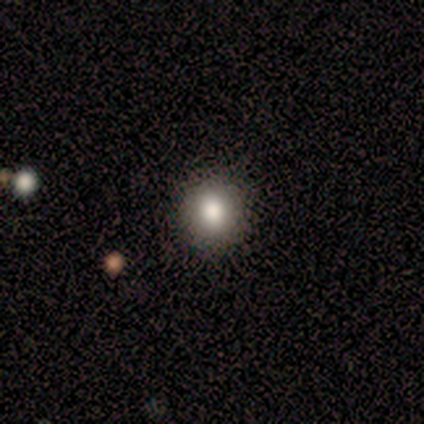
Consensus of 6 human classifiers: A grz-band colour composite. It shows a smooth galaxy with no disk features (83%) that is round (100%). Merging: none (100%).